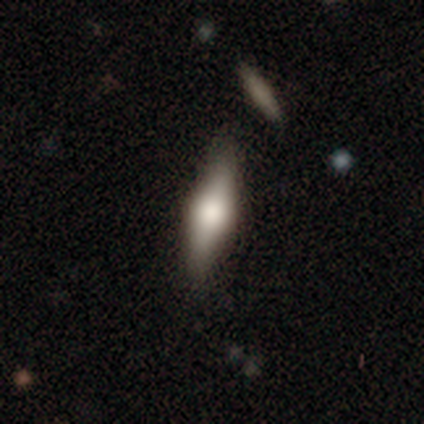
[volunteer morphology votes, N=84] Smooth or featured: smooth — 48% (featured or disk — 46%)
How rounded: in between — 50% (tied with cigar-shaped — 50%)
Merging: none — 84% (minor disturbance — 6%)